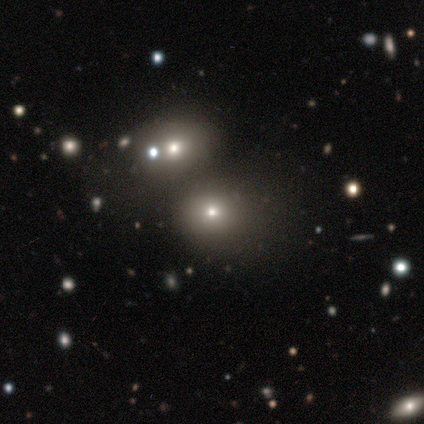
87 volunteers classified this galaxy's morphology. Smooth or featured? smooth (55%)
How rounded? round (79%)
Merging? merger (43%)